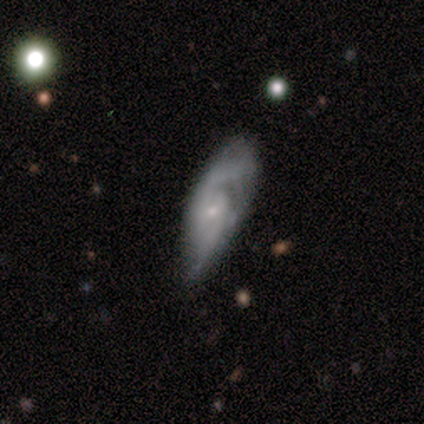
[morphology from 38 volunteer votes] A featured or disk galaxy (61%) with no bar (72%), 2 (94%) medium (59%) spiral arms (94%) and a small central bulge (89%).

Vote fractions:
- Smooth or featured? featured or disk: 61% / smooth: 34% / star or artifact: 5%
- Edge-on disk? no: 78% / yes: 22%
- Bar? no: 72% / weak: 28% / strong: 0%
- Spiral arms? yes: 94% / no: 6%
- Spiral winding? medium: 59% / tight: 24% / loose: 18%
- Spiral arm count? 2: 94% / can't tell: 6% / 1: 0% / 3: 0% / 4: 0% / more than 4: 0%
- Bulge size? small: 89% / moderate: 11% / dominant: 0% / large: 0% / none: 0%
- Merging? major disturbance: 42% / minor disturbance: 33% / none: 22% / merger: 3%